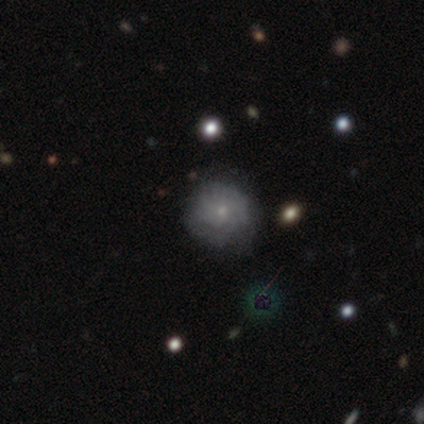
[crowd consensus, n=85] Smooth or featured: featured or disk — 61% (smooth — 29%)
Edge-on disk: no — 100%
Bar: no — 88% (weak — 12%)
Spiral arms: yes — 62% (no — 38%)
Spiral winding: tight — 66% (medium — 28%)
Spiral arm count: can't tell — 69% (4 — 12%)
Bulge size: small — 79% (moderate — 19%)
Merging: none — 66% (minor disturbance — 27%)